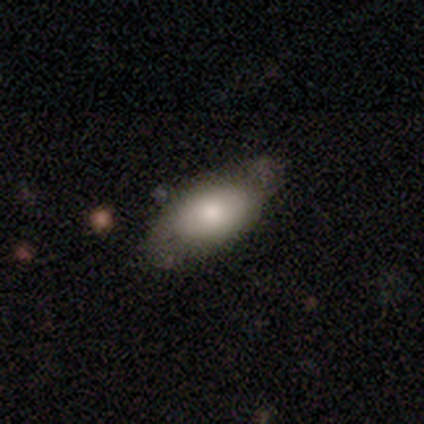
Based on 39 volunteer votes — Morphology: type=smooth (74%); roundness=in between (93%); merging=none (60%).